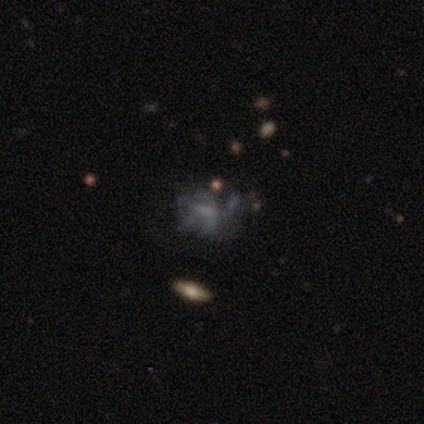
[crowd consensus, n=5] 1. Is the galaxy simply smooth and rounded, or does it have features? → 80% featured or disk, 20% smooth, 0% star or artifact.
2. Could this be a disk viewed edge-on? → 100% no, 0% yes.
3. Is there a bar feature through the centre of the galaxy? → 50% no, 25% strong, 25% weak.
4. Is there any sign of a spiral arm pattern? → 75% no, 25% yes.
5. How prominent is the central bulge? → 75% small, 25% none, 0% dominant, 0% large, 0% moderate.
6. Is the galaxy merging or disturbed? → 60% major disturbance, 40% none, 0% minor disturbance, 0% merger.